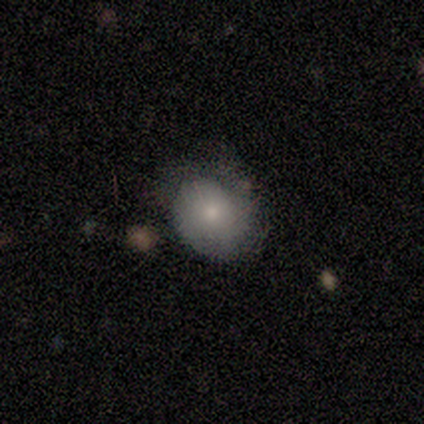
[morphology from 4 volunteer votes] Volunteers were most divided on "how rounded": round: 67%, in between: 33%, cigar-shaped: 0%. More confident: smooth or featured — smooth (75%); merging — minor disturbance (75%).